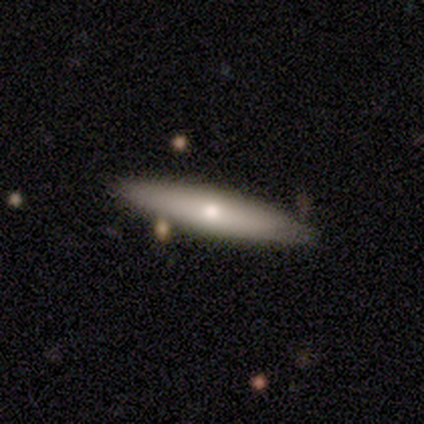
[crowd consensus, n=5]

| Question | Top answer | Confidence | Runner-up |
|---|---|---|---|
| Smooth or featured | smooth | 60% | featured or disk (40%) |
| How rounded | cigar-shaped | 100% | — |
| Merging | none | 80% | merger (20%) |